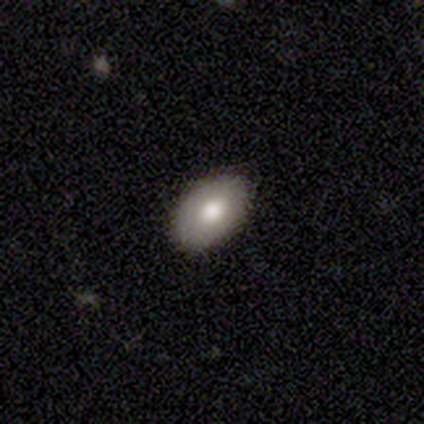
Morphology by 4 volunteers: This is likely a smooth galaxy (75%). How rounded: clearly in between (100%). Merging: likely none (75%).